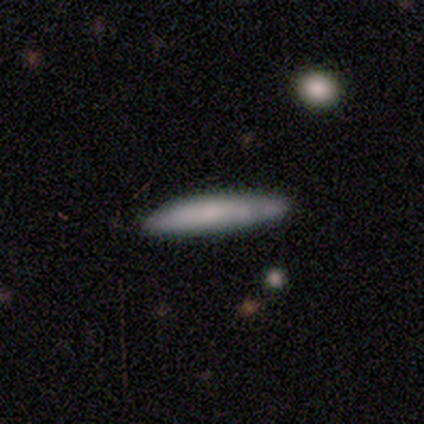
This appears to be a smooth galaxy with no disk features (100%) that is cigar-shaped (100%). Merging: none (100%).